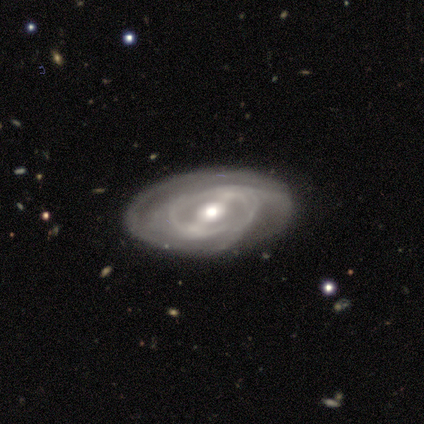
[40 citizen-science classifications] Q: Smooth or featured?
A: featured or disk (80%); runner-up: smooth (18%)
Q: Edge-on disk?
A: no (97%); runner-up: yes (3%)
Q: Bar?
A: weak (42%); runner-up: strong (29%)
Q: Spiral arms?
A: yes (81%); runner-up: no (19%)
Q: Spiral winding?
A: tight (48%); runner-up: medium (44%)
Q: Spiral arm count?
A: can't tell (40%); runner-up: 2 (28%)
Q: Bulge size?
A: moderate (74%); runner-up: small (16%)
Q: Merging?
A: none (69%); runner-up: minor disturbance (28%)